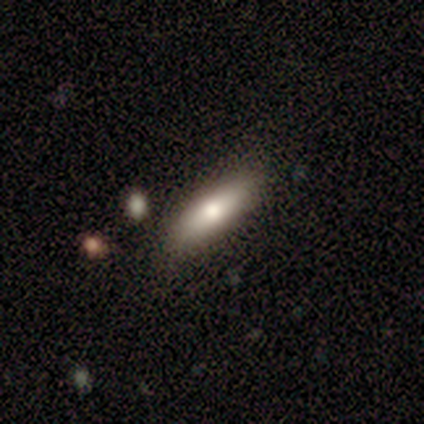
Smooth or featured? 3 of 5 (60%) said featured or disk. Edge-on disk? 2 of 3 (67%) said yes. Edge-on bulge? 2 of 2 (100%) said rounded. Merging? 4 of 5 (80%) said none.